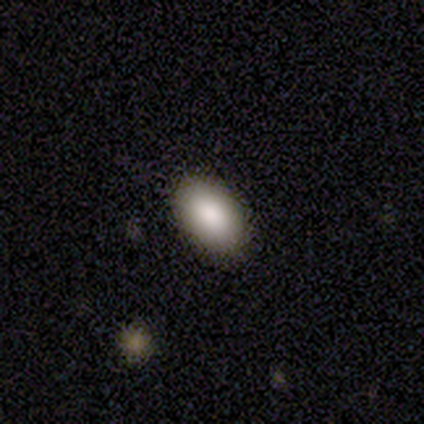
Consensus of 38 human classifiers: A smooth galaxy with no disk features (87%) that is in between round and cigar-shaped (97%). Merging: none (94%).